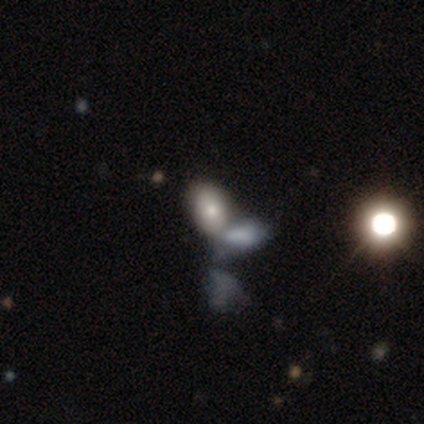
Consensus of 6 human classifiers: Smooth or featured? smooth (67%)
How rounded? in between (100%)
Merging? none (40%, tied with merger)